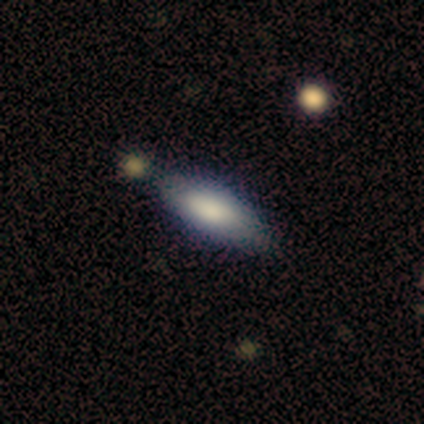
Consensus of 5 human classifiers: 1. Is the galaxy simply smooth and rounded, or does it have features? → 80% smooth, 20% featured or disk, 0% star or artifact.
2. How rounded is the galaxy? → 50% in between (tied), 50% cigar-shaped (tied), 0% round.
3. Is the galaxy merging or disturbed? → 80% none, 20% minor disturbance, 0% major disturbance, 0% merger.